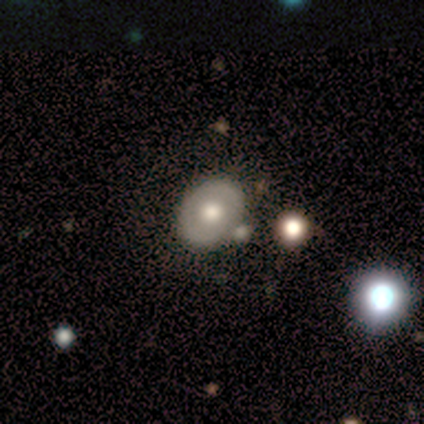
smooth_or_featured: smooth (p=0.60) [alt: featured or disk p=0.40]
how_rounded: round (p=0.67) [alt: in between p=0.33]
merging: none (p=0.60) [alt: major disturbance p=0.40]